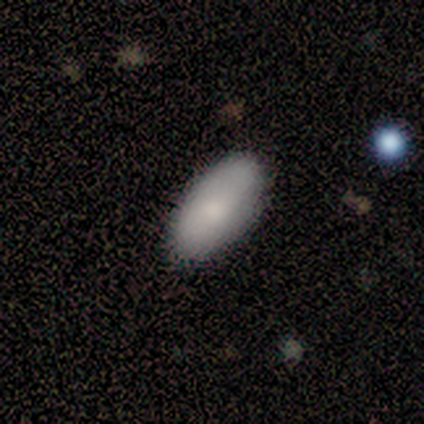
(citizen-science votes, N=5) Smooth or featured: smooth — 100%
How rounded: in between — 100%
Merging: none — 80% (minor disturbance — 20%)